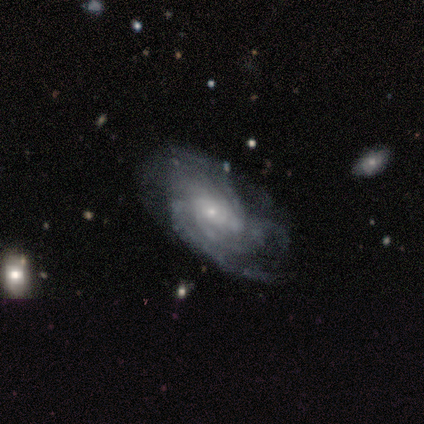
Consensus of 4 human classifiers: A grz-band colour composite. It shows a featured or disk galaxy (75%) with a weak bar (67%), tight (33%, tied with medium and loose) spiral arms (100%) and a small central bulge (100%). Merging: none (67%).